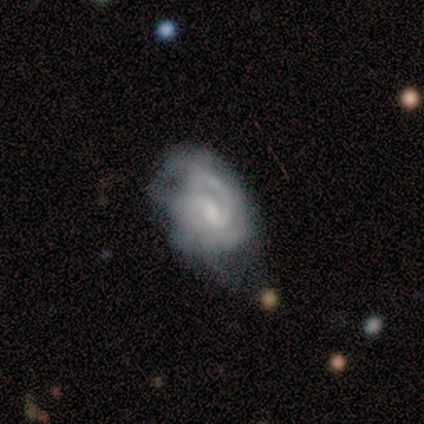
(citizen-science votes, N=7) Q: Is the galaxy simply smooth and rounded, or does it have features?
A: featured or disk — 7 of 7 (100%).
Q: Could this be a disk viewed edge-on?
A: no — 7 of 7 (100%).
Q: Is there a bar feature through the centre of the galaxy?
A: weak — 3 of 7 (43%).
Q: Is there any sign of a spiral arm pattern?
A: yes — 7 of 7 (100%).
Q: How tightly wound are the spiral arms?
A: medium — 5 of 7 (71%).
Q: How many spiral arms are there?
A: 2 — 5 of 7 (71%).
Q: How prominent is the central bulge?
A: moderate — 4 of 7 (57%).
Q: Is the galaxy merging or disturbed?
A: none — 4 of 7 (57%).